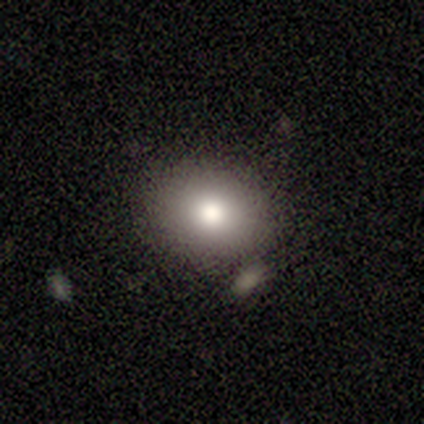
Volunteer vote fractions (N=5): Q: Smooth or featured?
A: smooth (80%); runner-up: star or artifact (20%)
Q: How rounded?
A: round (50%); tied with: in between (50%)
Q: Merging?
A: none (75%); runner-up: minor disturbance (25%)